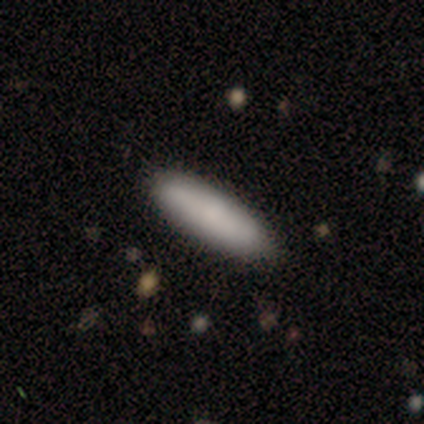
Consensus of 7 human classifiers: Volunteers were most divided on "how rounded": in between: 57%, cigar-shaped: 43%, round: 0%. More confident: smooth or featured — smooth (100%); merging — none (100%).